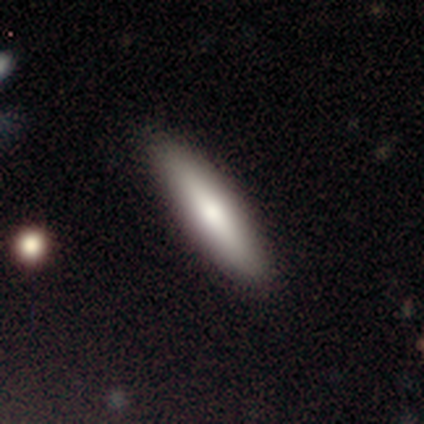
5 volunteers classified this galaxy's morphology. Volunteers were most divided on "smooth or featured": smooth: 60%, featured or disk: 40%, star or artifact: 0%. More confident: merging — none (100%); how rounded — cigar-shaped (67%).